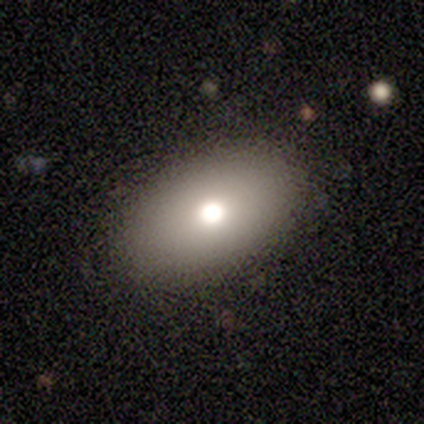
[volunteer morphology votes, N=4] This appears to be a smooth galaxy with no disk features (100%) that is in between round and cigar-shaped (75%). Merging: none (100%).